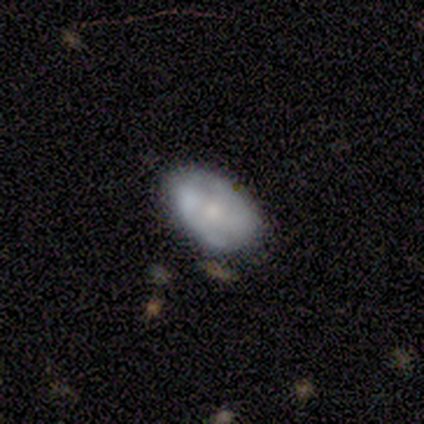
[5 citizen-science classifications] smooth_or_featured: featured or disk (p=0.60) [alt: smooth p=0.40]
disk_edge_on: no (p=1.00)
bar: no (p=0.67) [alt: strong p=0.33]
has_spiral_arms: yes (p=0.67) [alt: no p=0.33]
spiral_winding: tight (p=0.50) [tied with: medium p=0.50]
spiral_arm_count: 2 (p=1.00)
bulge_size: moderate (p=0.67) [alt: small p=0.33]
merging: none (p=0.60) [alt: major disturbance p=0.20]